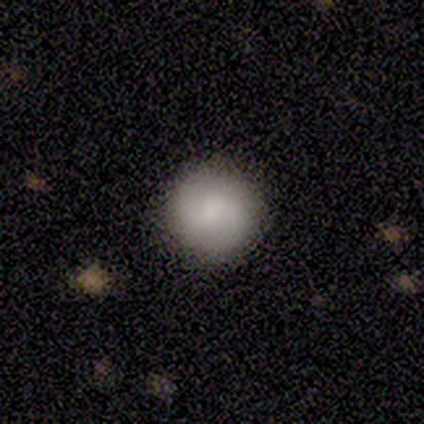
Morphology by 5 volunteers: A smooth galaxy with no disk features (100%) that is round (100%).

Vote fractions:
- Smooth or featured? smooth: 100% / featured or disk: 0% / star or artifact: 0%
- How rounded? round: 100% / in between: 0% / cigar-shaped: 0%
- Merging? none: 80% / minor disturbance: 20% / major disturbance: 0% / merger: 0%